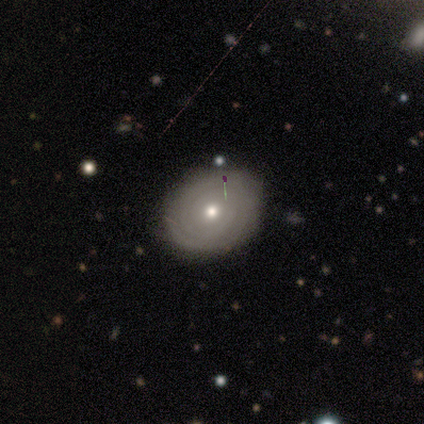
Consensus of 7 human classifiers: A featured or disk galaxy (71%) with no bar (100%), tight (100%) spiral arms (100%) and a small central bulge (60%). Merging: none (86%).